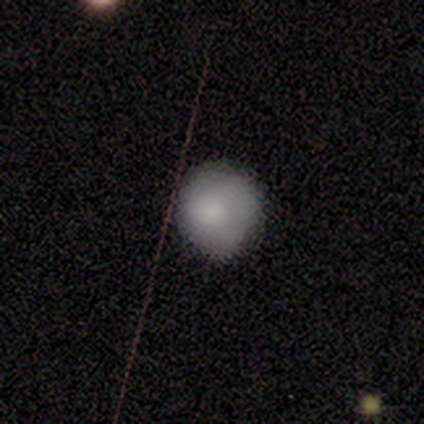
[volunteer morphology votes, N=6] Smooth or featured: smooth — 83% (star or artifact — 17%)
How rounded: round — 100%
Merging: none — 100%